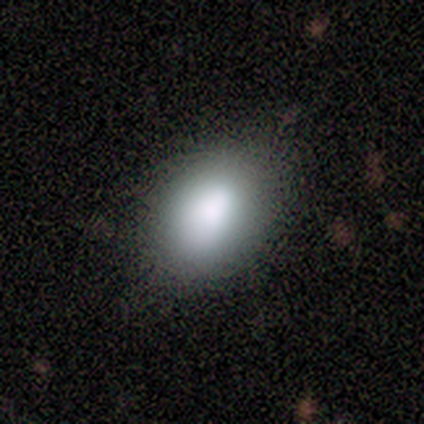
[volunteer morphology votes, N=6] Smooth or featured?
  - smooth: 83% *
  - star or artifact: 17%
  - featured or disk: 0%
How rounded?
  - in between: 80% *
  - round: 20%
  - cigar-shaped: 0%
Merging?
  - none: 100% *
  - minor disturbance: 0%
  - major disturbance: 0%
  - merger: 0%